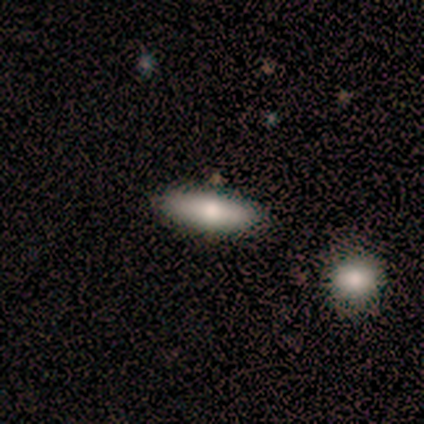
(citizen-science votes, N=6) Smooth or featured? smooth (83%)
How rounded? in between (60%)
Merging? none (100%)